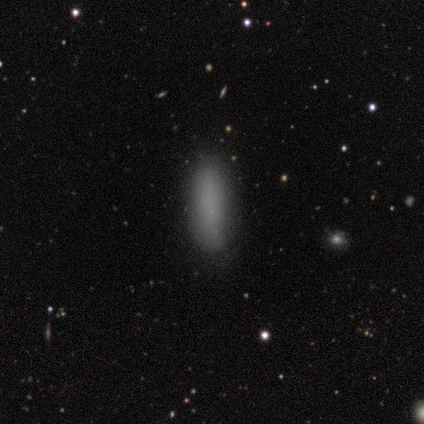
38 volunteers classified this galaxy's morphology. Smooth or featured? smooth (79%)
How rounded? cigar-shaped (57%)
Merging? none (88%)